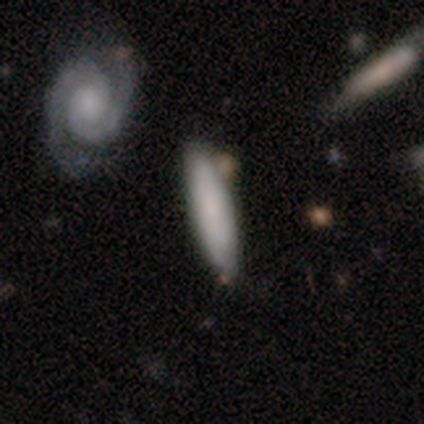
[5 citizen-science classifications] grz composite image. It shows a smooth galaxy with no disk features (60%) that is cigar-shaped (67%). Merging: none (75%).